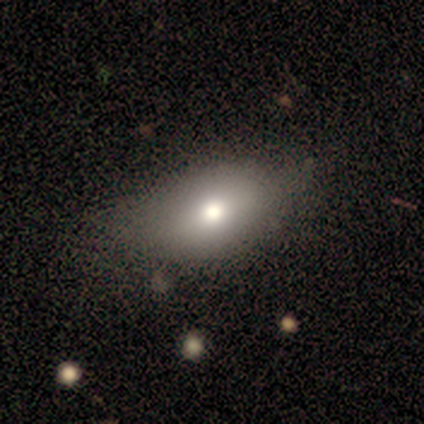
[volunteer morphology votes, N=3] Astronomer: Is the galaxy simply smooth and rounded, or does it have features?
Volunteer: smooth — 67%.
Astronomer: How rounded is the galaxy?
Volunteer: in between — 100%.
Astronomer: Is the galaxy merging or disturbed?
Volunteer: none — 67%.